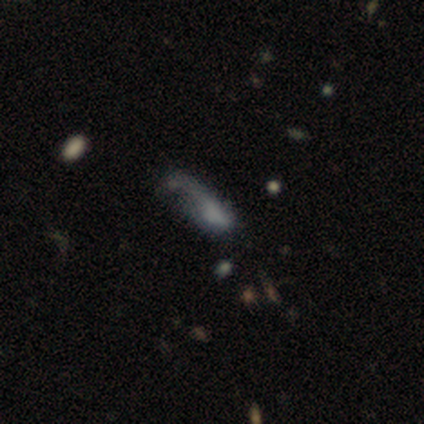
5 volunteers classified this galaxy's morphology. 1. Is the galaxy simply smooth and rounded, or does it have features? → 80% smooth, 20% star or artifact, 0% featured or disk.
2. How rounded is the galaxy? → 100% in between, 0% round, 0% cigar-shaped.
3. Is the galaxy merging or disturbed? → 50% minor disturbance (tied), 50% major disturbance (tied), 0% none, 0% merger.